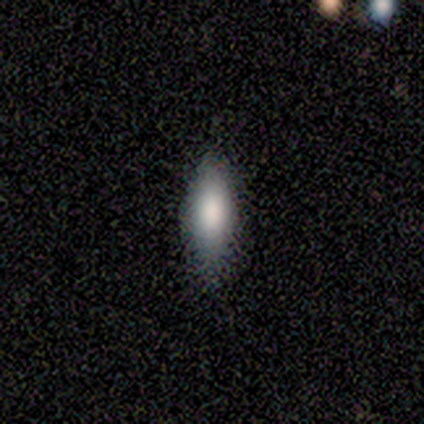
Smooth or featured? 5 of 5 (100%) said smooth. How rounded? 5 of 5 (100%) said in between. Merging? 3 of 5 (60%) said none.